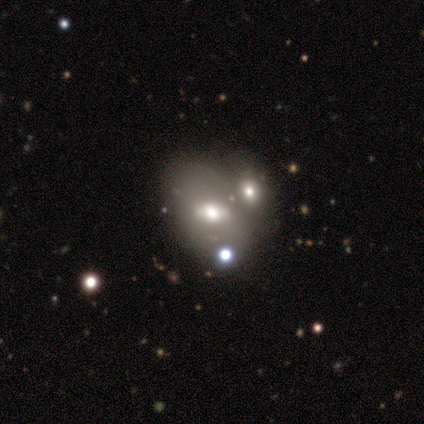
Q: Smooth or featured?
A: featured or disk (60%); runner-up: smooth (20%)
Q: Edge-on disk?
A: no (67%); runner-up: yes (33%)
Q: Bar?
A: strong (50%); tied with: weak (50%)
Q: Spiral arms?
A: yes (50%); tied with: no (50%)
Q: Spiral winding?
A: tight (100%)
Q: Spiral arm count?
A: can't tell (100%)
Q: Bulge size?
A: moderate (100%)
Q: Merging?
A: merger (50%); runner-up: none (25%)